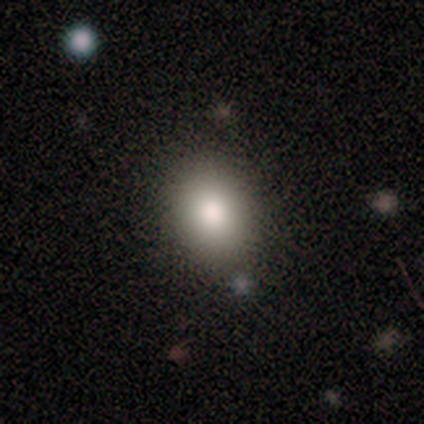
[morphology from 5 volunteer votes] Q: Smooth or featured?
A: smooth (100%)
Q: How rounded?
A: in between (100%)
Q: Merging?
A: none (100%)